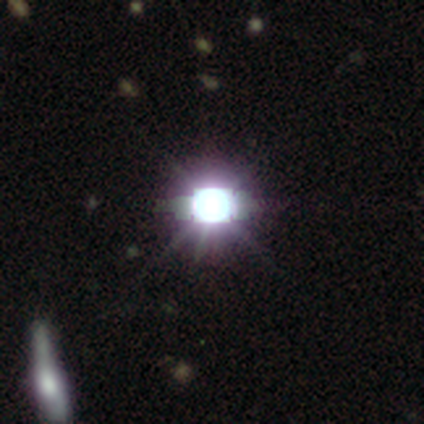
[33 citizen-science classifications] star or artifact 100%, smooth 0%, featured or disk 0%.